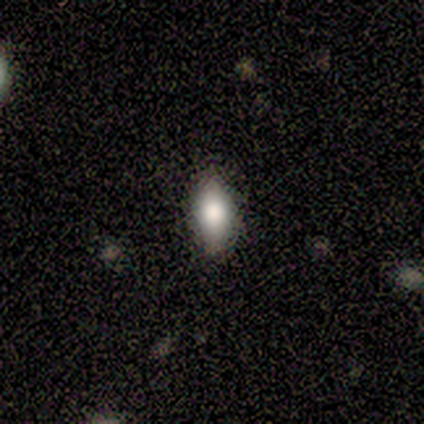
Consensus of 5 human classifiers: Smooth or featured: smooth — 60% (featured or disk — 20%)
How rounded: in between — 100%
Merging: none — 100%